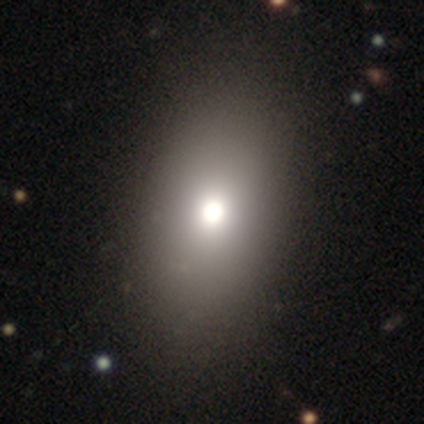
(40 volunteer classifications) Volunteers were most divided on "merging": none: 57%, major disturbance: 8%, minor disturbance: 5%, merger: 3%. More confident: how rounded — in between (85%); smooth or featured — smooth (82%).